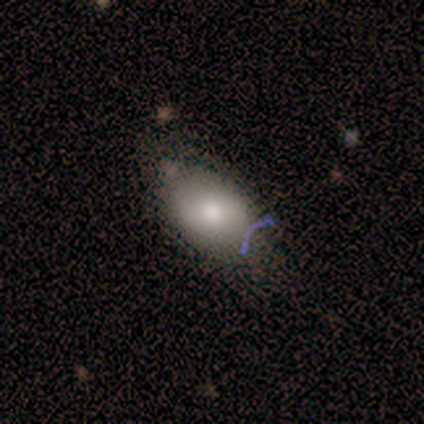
Smooth or featured? smooth (60%)
How rounded? in between (100%)
Merging? none (50%)